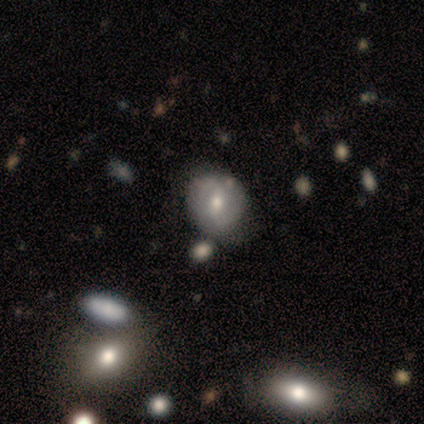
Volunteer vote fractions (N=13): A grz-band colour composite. It shows a smooth galaxy with no disk features (54%) that is round (71%). Merging: none (67%).